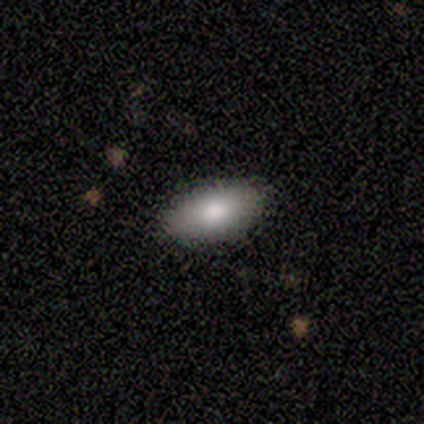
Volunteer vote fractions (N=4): smooth 75%, star or artifact 25%, featured or disk 0%. Down the decision tree: how rounded — in between (100%); merging — none (67%).